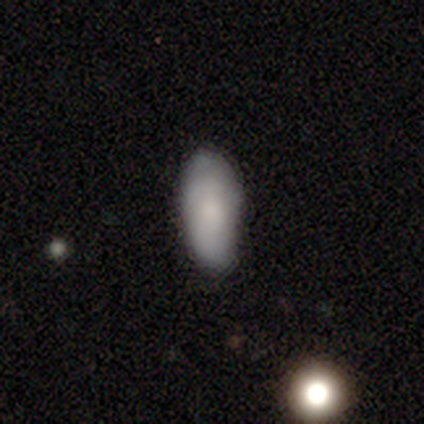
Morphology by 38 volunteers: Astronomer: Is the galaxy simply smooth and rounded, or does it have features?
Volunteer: smooth — 74%.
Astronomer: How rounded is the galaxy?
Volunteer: in between — 82%.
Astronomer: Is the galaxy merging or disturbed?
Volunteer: none — 58%.